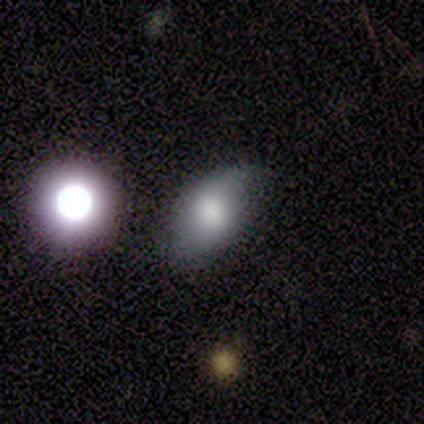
A smooth galaxy with no disk features (40%, tied with featured or disk) that is in between round and cigar-shaped (100%). Merging: none (50%, tied with minor disturbance).